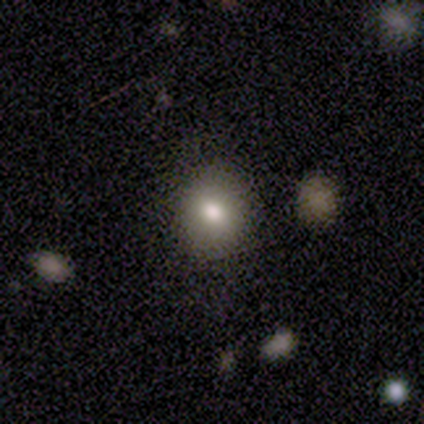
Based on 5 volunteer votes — A smooth galaxy with no disk features (80%) that is round (50%).

Vote fractions:
- Smooth or featured? smooth: 80% / star or artifact: 20% / featured or disk: 0%
- How rounded? round: 50% / in between: 25% / cigar-shaped: 25%
- Merging? none: 100% / minor disturbance: 0% / major disturbance: 0% / merger: 0%